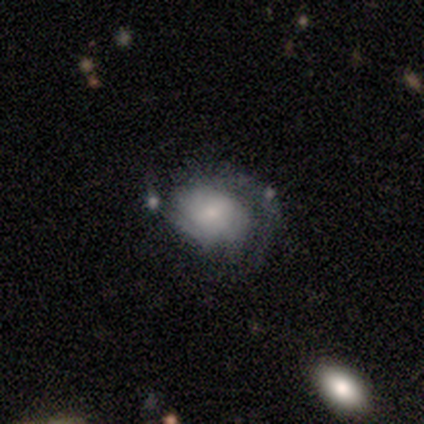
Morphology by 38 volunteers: Volunteers were most divided on "merging": none: 41%, minor disturbance: 26%, major disturbance: 24%, merger: 9%. More confident: edge-on disk — no (100%); spiral arms — yes (83%); bulge size — small (71%); smooth or featured — featured or disk (63%); bar — no (62%); spiral winding — medium (50%); spiral arm count — 2 (50%).